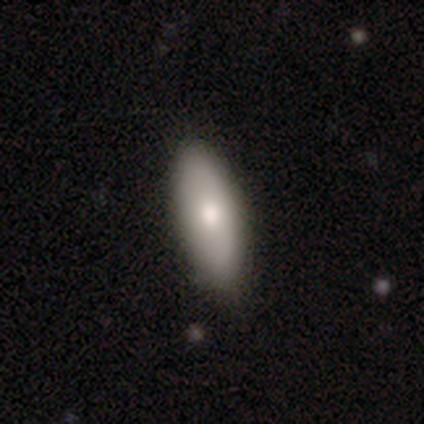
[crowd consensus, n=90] This appears to be a smooth galaxy with no disk features (71%) that is in between round and cigar-shaped (72%). Merging: none (85%).